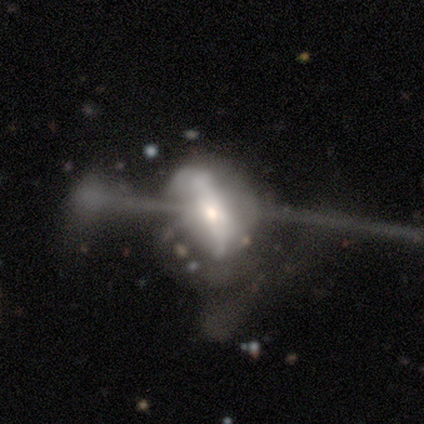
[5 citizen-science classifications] A smooth galaxy with no disk features (60%) that is in between round and cigar-shaped (67%).

Vote fractions:
- Smooth or featured? smooth: 60% / featured or disk: 20% / star or artifact: 20%
- How rounded? in between: 67% / round: 33% / cigar-shaped: 0%
- Merging? merger: 50% / minor disturbance: 25% / major disturbance: 25% / none: 0%